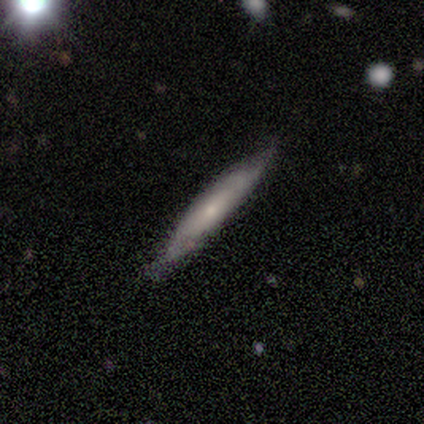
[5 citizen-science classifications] smooth-or-featured: smooth: 80% | featured or disk: 20% | star or artifact: 0%
  how-rounded: cigar-shaped: 75% | in between: 25% | round: 0%
  merging: minor disturbance: 60% | none: 40% | major disturbance: 0% | merger: 0%